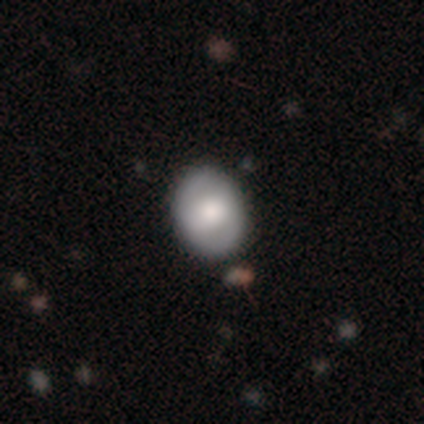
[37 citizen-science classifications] smooth_or_featured: smooth (p=0.54) [alt: featured or disk p=0.32]
how_rounded: in between (p=0.65) [alt: round p=0.35]
merging: none (p=0.88) [alt: minor disturbance p=0.12]